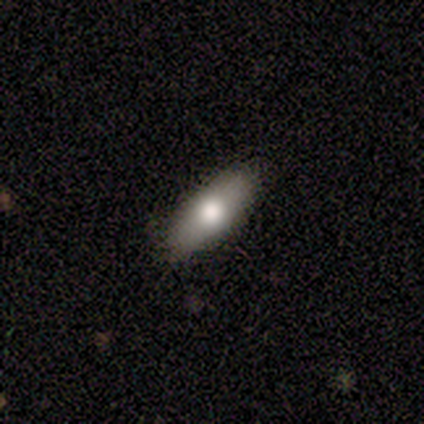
Smooth or featured? smooth (40%, tied with star or artifact)
How rounded? in between (100%)
Merging? none (100%)